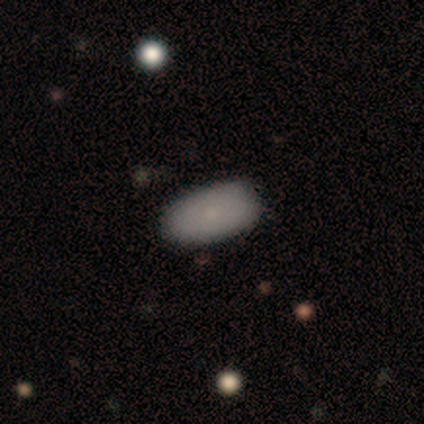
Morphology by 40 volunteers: This appears to be a smooth galaxy with no disk features (85%) that is in between round and cigar-shaped (91%). Merging: none (92%).